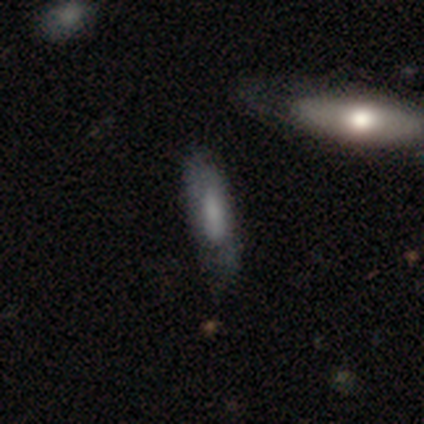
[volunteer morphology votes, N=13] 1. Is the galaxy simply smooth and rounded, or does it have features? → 62% smooth, 31% featured or disk, 8% star or artifact.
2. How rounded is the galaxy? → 62% cigar-shaped, 38% in between, 0% round.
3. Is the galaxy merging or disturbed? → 67% none, 25% minor disturbance, 8% major disturbance, 0% merger.